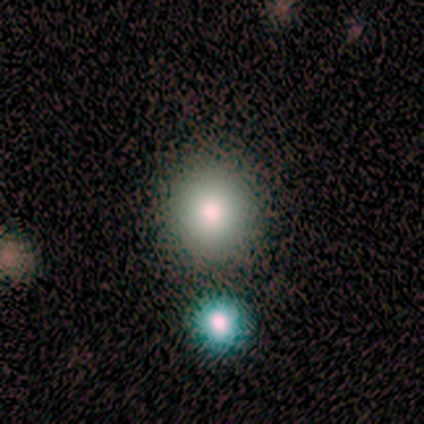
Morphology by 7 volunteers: Smooth or featured: smooth — 57% (star or artifact — 29%)
How rounded: round — 100%
Merging: none — 100%